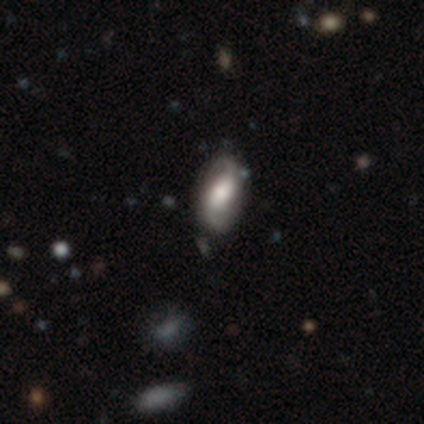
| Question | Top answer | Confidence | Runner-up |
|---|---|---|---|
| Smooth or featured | smooth | 60% | featured or disk (40%) |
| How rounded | in between | 67% | cigar-shaped (33%) |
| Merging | none | 60% | minor disturbance (40%) |